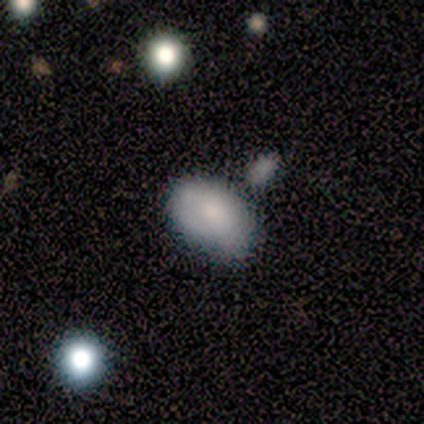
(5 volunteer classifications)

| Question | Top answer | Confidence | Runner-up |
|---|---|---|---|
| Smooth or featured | smooth | 80% | featured or disk (20%) |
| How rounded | in between | 100% | — |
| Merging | none | 40% | tied: minor disturbance (40%) |